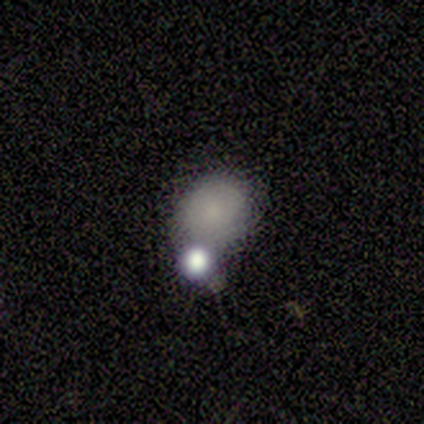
This appears to be a smooth galaxy with no disk features (60%) that is round (67%). Merging: merger (50%).